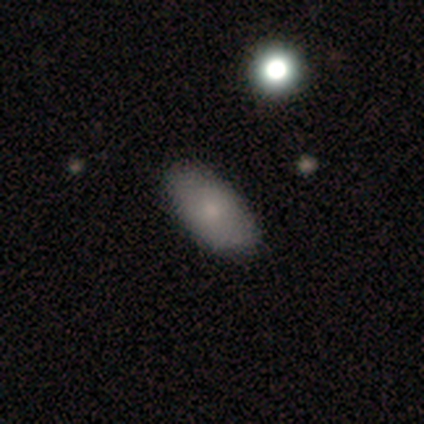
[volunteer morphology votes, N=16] Smooth or featured? 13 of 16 (81%) said smooth. How rounded? 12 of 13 (92%) said in between. Merging? 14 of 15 (93%) said none.